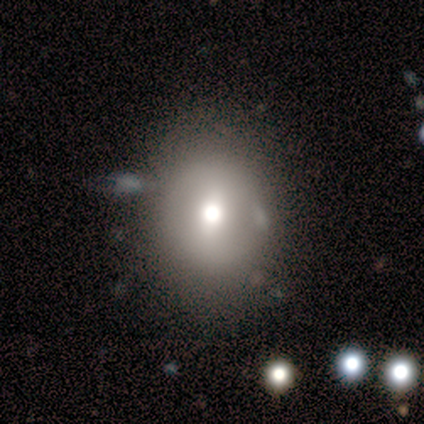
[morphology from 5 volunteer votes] Volunteers were most divided on "how rounded" (2-way tie): round: 50%, in between: 50%, cigar-shaped: 0%. More confident: smooth or featured — smooth (80%); merging — none (60%).